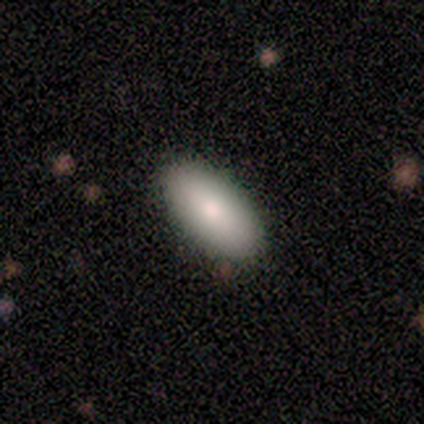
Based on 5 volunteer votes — Smooth or featured?
  - smooth: 80% *
  - star or artifact: 20%
  - featured or disk: 0%
How rounded?
  - in between: 100% *
  - round: 0%
  - cigar-shaped: 0%
Merging?
  - none: 75% *
  - minor disturbance: 25%
  - major disturbance: 0%
  - merger: 0%